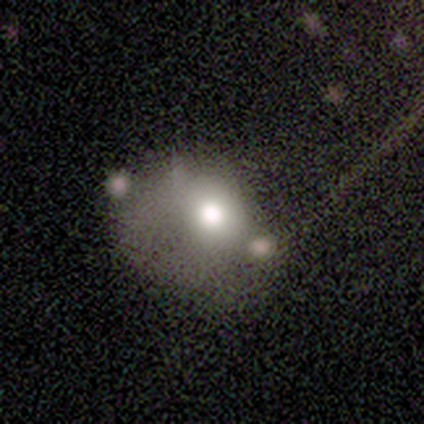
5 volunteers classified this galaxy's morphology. Volunteers were most divided on "merging": none: 50%, minor disturbance: 25%, merger: 25%, major disturbance: 0%. More confident: how rounded — round (67%); smooth or featured — smooth (60%).